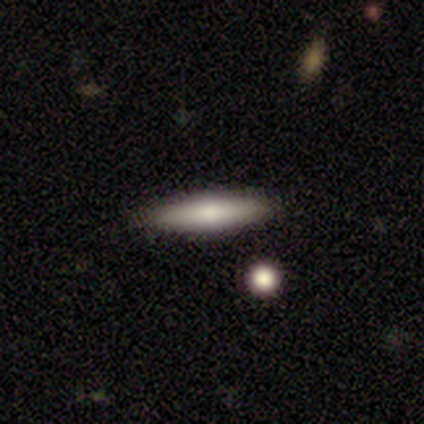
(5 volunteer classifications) A smooth galaxy with no disk features (60%) that is cigar-shaped (100%). Merging: none (80%).